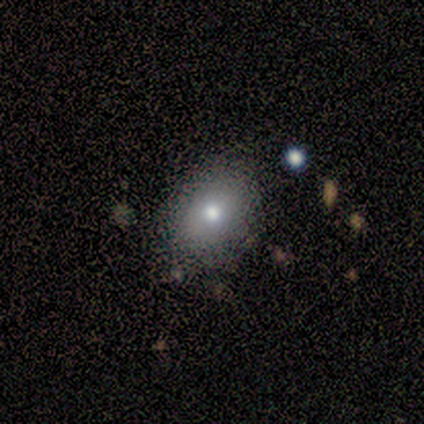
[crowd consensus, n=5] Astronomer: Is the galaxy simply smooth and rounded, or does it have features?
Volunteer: smooth — 80%.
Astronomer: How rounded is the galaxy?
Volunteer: in between — 75%.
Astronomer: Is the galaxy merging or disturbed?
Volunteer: none — 50%, tied with minor disturbance at 50%.